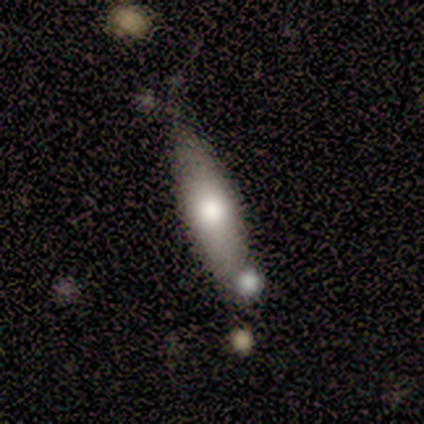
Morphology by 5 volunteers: Overall: smooth (60%; featured or disk 40%). How rounded: in between (67%; cigar-shaped 33%). Merging: none (60%; minor disturbance 40%).